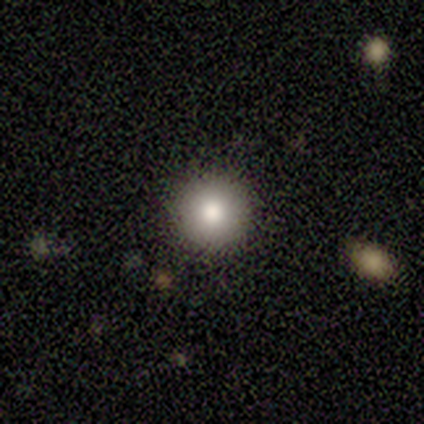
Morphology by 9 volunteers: This is clearly a smooth galaxy (100%). How rounded: clearly round (100%). Merging: clearly none (100%).